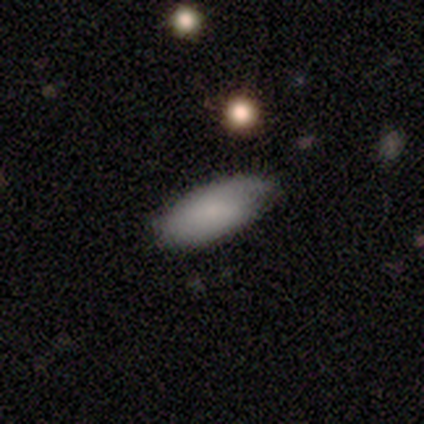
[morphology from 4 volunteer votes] A smooth galaxy with no disk features (75%) that is in between round and cigar-shaped (100%). Merging: minor disturbance (67%).